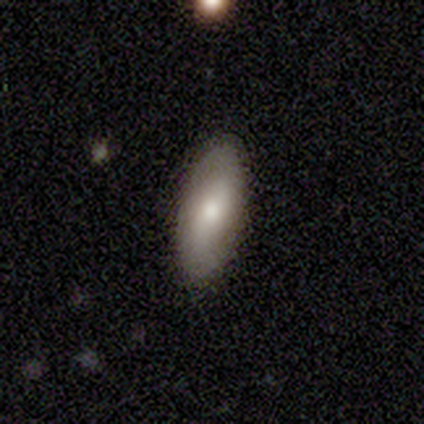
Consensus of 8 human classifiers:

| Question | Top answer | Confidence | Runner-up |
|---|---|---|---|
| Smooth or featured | smooth | 75% | featured or disk (25%) |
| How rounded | in between | 83% | cigar-shaped (17%) |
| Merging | none | 100% | — |